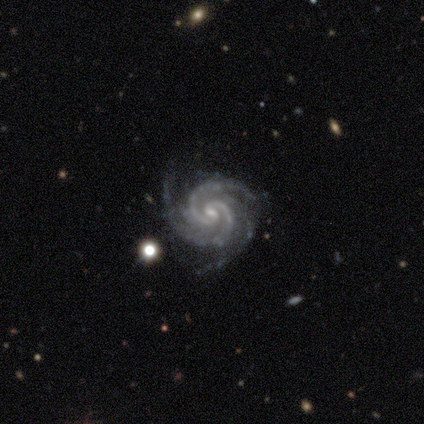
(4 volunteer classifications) smooth-or-featured: featured or disk: 100% | smooth: 0% | star or artifact: 0%
  disk-edge-on: no: 100% | yes: 0%
    bar: weak: 75% | no: 25% | strong: 0%
    has-spiral-arms: yes: 100% | no: 0%
      spiral-winding: tight: 100% | medium: 0% | loose: 0%
      spiral-arm-count: 2: 50% (tied) | 3: 50% (tied) | 1: 0% | 4: 0% | more than 4: 0% | can't tell: 0%
    bulge-size: moderate: 50% | small: 25% | none: 25% | dominant: 0% | large: 0%
  merging: none: 100% | minor disturbance: 0% | major disturbance: 0% | merger: 0%